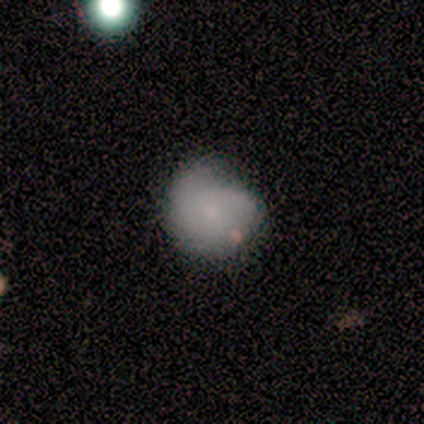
smooth_or_featured: featured or disk (p=0.67) [alt: smooth p=0.33]
disk_edge_on: no (p=1.00)
bar: no (p=0.50) [alt: strong p=0.25]
has_spiral_arms: yes (p=0.75) [alt: no p=0.25]
spiral_winding: medium (p=1.00)
spiral_arm_count: 2 (p=0.67) [alt: can't tell p=0.33]
bulge_size: none (p=0.50) [alt: moderate p=0.25]
merging: major disturbance (p=0.50) [alt: none p=0.33]